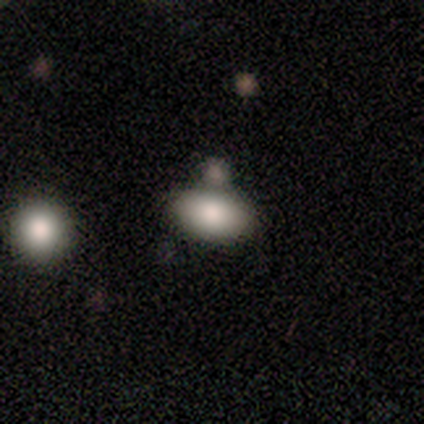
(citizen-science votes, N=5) smooth 80%, featured or disk 20%, star or artifact 0%. Down the decision tree: how rounded — in between (100%); merging — none (40%, tied with merger).